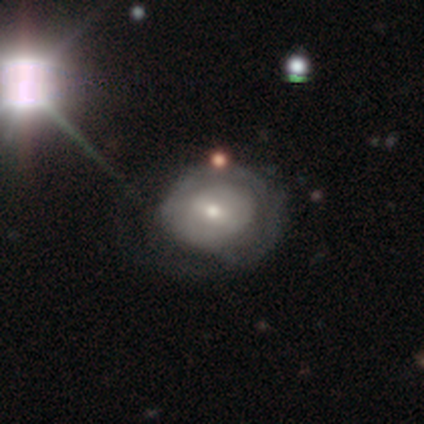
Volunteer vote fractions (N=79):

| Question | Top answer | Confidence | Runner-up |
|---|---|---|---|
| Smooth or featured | featured or disk | 51% | smooth (41%) |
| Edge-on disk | no | 100% | — |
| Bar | weak | 48% | no (45%) |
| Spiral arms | yes | 57% | no (42%) |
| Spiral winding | tight | 43% | medium (39%) |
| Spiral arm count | can't tell | 52% | 1 (30%) |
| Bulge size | moderate | 57% | small (40%) |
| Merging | none | 25% | minor disturbance (15%) |